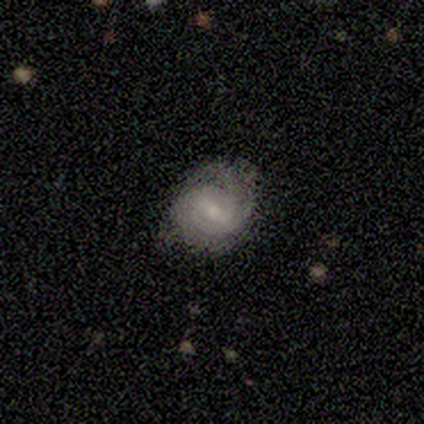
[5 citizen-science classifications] Volunteers were most divided on "bulge size" (3-way tie): moderate: 33%, small: 33%, none: 33%, dominant: 0%, large: 0%. More confident: edge-on disk — no (100%); spiral arms — yes (100%); merging — none (80%); bar — weak (67%); spiral winding — medium (67%); spiral arm count — can't tell (67%); smooth or featured — featured or disk (60%).